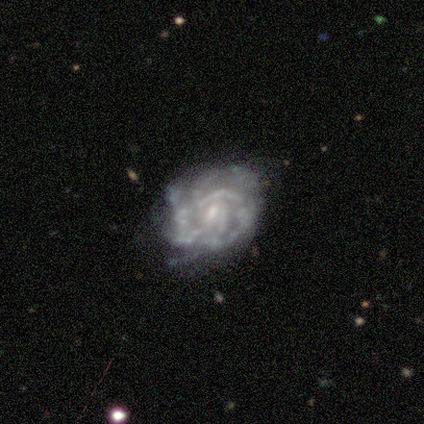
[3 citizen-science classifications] smooth_or_featured: featured or disk (p=1.00)
disk_edge_on: no (p=1.00)
bar: no (p=0.67) [alt: strong p=0.33]
has_spiral_arms: no (p=0.67) [alt: yes p=0.33]
bulge_size: small (p=0.67) [alt: none p=0.33]
merging: none (p=0.67) [alt: major disturbance p=0.33]